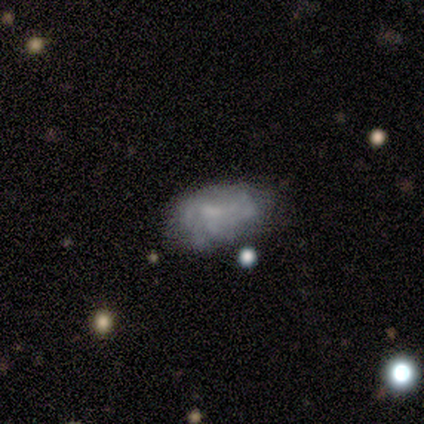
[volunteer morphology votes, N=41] smooth-or-featured: featured or disk: 63% | smooth: 32% | star or artifact: 5%
  disk-edge-on: no: 96% | yes: 4%
    bar: no: 64% | weak: 32% | strong: 4%
    has-spiral-arms: no: 52% | yes: 48%
    bulge-size: none: 44% | small: 36% | moderate: 20% | dominant: 0% | large: 0%
  merging: none: 36% | minor disturbance: 31% | major disturbance: 23% | merger: 10%